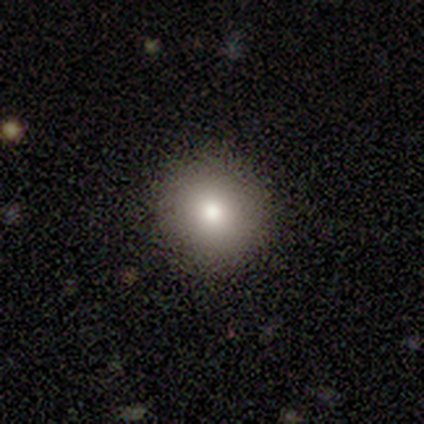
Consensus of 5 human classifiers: Q: Smooth or featured?
A: smooth (100%)
Q: How rounded?
A: round (60%); runner-up: in between (40%)
Q: Merging?
A: none (80%); runner-up: minor disturbance (20%)